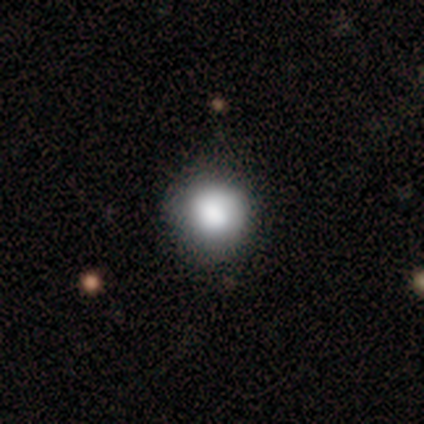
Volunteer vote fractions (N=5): smooth_or_featured: smooth (p=0.60) [alt: star or artifact p=0.40]
how_rounded: round (p=1.00)
merging: none (p=0.67) [alt: minor disturbance p=0.33]